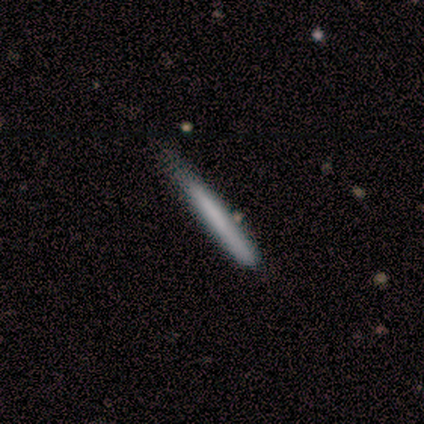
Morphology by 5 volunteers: Smooth or featured?
  - smooth: 40% * (tied)
  - featured or disk: 40% * (tied)
  - star or artifact: 20%
How rounded?
  - cigar-shaped: 100% *
  - round: 0%
  - in between: 0%
Merging?
  - none: 75% *
  - minor disturbance: 25%
  - major disturbance: 0%
  - merger: 0%